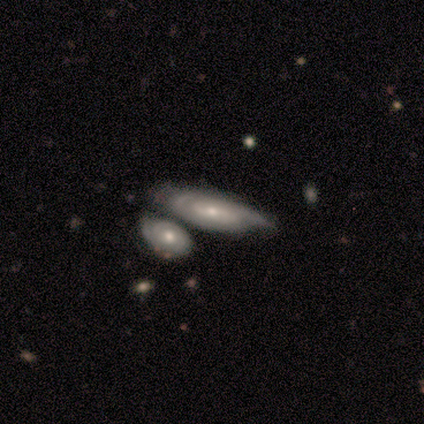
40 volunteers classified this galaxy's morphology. This is clearly a featured or disk galaxy (80%). It is clearly not viewed edge-on (81%). Bar: possibly no (58%). Spiral arm pattern: likely yes (73%). Spiral arm count: likely can't tell (63%). Spiral winding: possibly tight (53%). Central bulge: possibly moderate (54%). Merging: marginally none (37%, tied with merger).